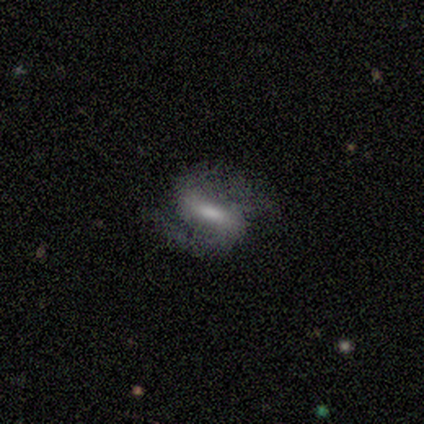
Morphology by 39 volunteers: A featured or disk galaxy (79%) with a strong bar (55%), 2 (97%) medium (41%) spiral arms (94%) and a small central bulge (39%). Merging: none (72%).